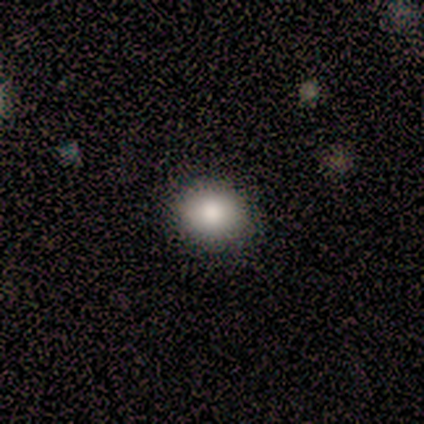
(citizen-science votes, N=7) smooth_or_featured: smooth (p=1.00)
how_rounded: round (p=0.71) [alt: in between p=0.29]
merging: none (p=1.00)